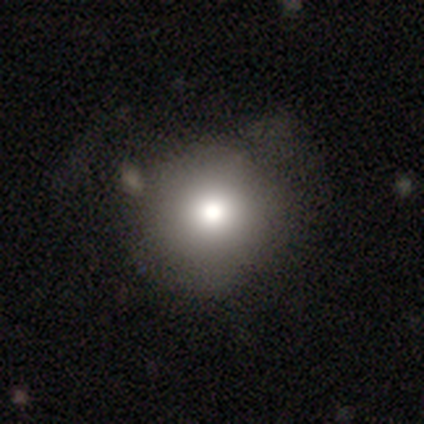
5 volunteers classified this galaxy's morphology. A smooth galaxy with no disk features (100%) that is round (100%).

Vote fractions:
- Smooth or featured? smooth: 100% / featured or disk: 0% / star or artifact: 0%
- How rounded? round: 100% / in between: 0% / cigar-shaped: 0%
- Merging? none: 60% / major disturbance: 40% / minor disturbance: 0% / merger: 0%